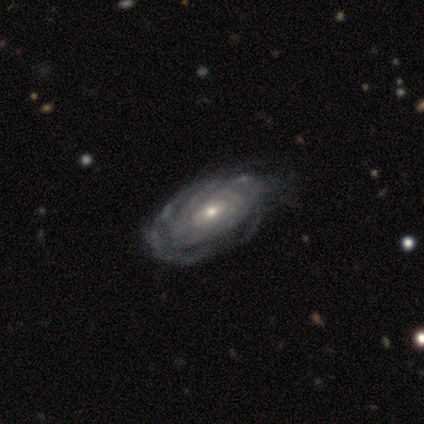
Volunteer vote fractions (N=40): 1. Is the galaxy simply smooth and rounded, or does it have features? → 98% featured or disk, 2% smooth, 0% star or artifact.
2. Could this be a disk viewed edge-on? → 97% no, 3% yes.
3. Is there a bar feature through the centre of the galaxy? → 79% no, 21% weak, 0% strong.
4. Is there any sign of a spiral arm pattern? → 95% yes, 5% no.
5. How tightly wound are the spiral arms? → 78% tight, 14% medium, 8% loose.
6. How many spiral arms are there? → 56% can't tell, 17% more than 4, 11% 3, 8% 2, 6% 4, 3% 1.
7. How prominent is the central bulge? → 53% small, 45% moderate, 3% large, 0% dominant, 0% none.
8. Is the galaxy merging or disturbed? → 32% none, 22% minor disturbance, 8% major disturbance, 0% merger.